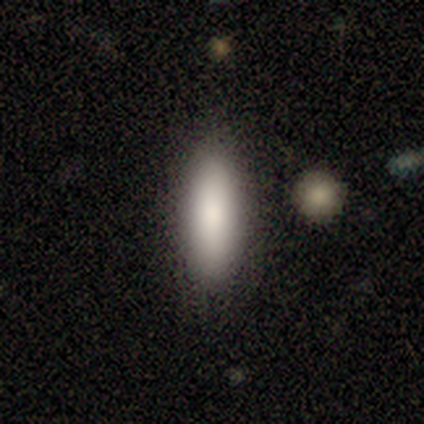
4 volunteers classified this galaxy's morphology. This is clearly a smooth galaxy (100%). How rounded: likely cigar-shaped (75%). Merging: clearly none (100%).